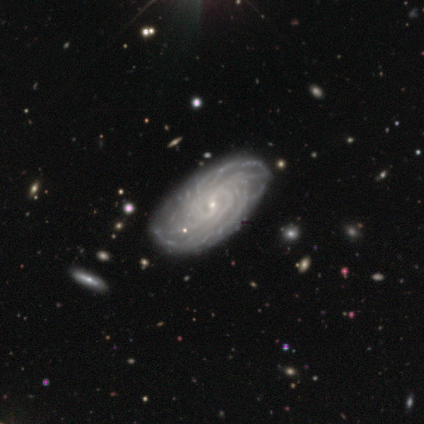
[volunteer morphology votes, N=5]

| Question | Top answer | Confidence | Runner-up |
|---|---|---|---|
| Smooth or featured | featured or disk | 100% | — |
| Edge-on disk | no | 100% | — |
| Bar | weak | 80% | no (20%) |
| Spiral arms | yes | 100% | — |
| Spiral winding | tight | 100% | — |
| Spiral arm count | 2 | 40% | tied: more than 4 (40%) |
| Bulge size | small | 80% | moderate (20%) |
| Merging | none | 80% | minor disturbance (20%) |